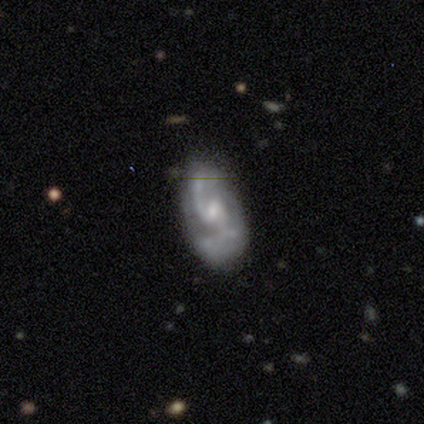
Overall: featured or disk (100%). Edge-on disk: no (100%). Bar: weak (60%; no 40%). Spiral arms: yes (100%). Spiral arm count: 1 (40%, tied with 2). Spiral winding: medium (80%). Bulge size: small (60%; none 40%). Merging: none (60%; major disturbance 20%).